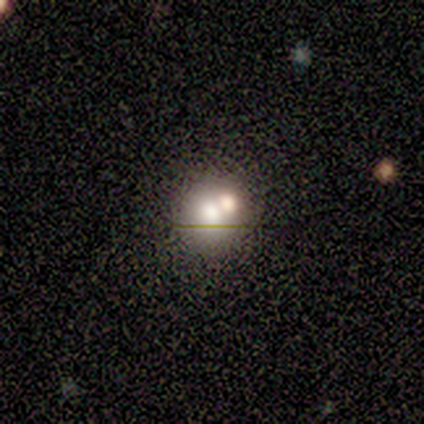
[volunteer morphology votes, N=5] Smooth or featured?
  - smooth: 40% * (tied)
  - star or artifact: 40% * (tied)
  - featured or disk: 20%
How rounded?
  - round: 100% *
  - in between: 0%
  - cigar-shaped: 0%
Merging?
  - merger: 67% *
  - none: 33%
  - minor disturbance: 0%
  - major disturbance: 0%